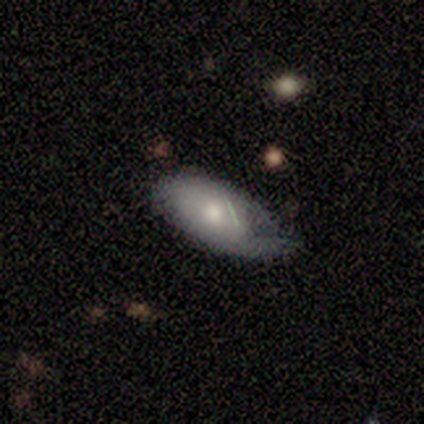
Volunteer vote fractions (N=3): Smooth or featured? 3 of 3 (100%) said smooth. How rounded? 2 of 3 (67%) said in between. Merging? 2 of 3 (67%) said none.